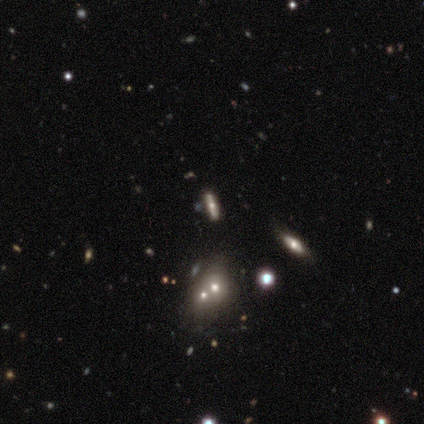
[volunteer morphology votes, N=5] smooth 40% (tied), featured or disk 40% (tied), star or artifact 20%. Down the decision tree: how rounded — in between (100%); merging — none (75%).